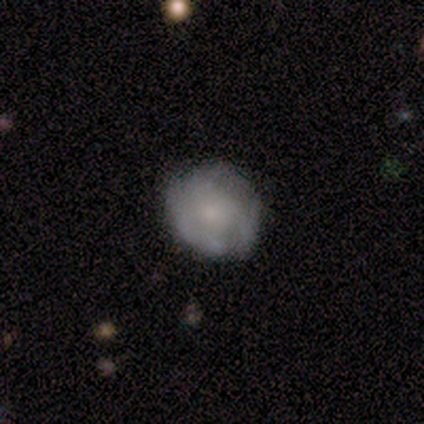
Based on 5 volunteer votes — This is likely a smooth galaxy (60%). How rounded: likely round (67%). Merging: likely minor disturbance (60%).